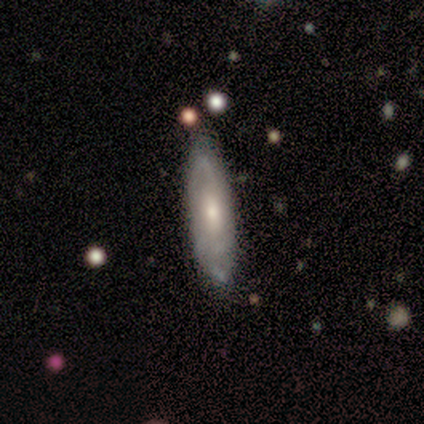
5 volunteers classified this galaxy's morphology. A featured or disk galaxy (60%) with a weak bar (50%, tied with no), 3 (100%) medium (100%) spiral arms (50%, tied with no) and a moderate central bulge (50%, tied with small).

Vote fractions:
- Smooth or featured? featured or disk: 60% / smooth: 40% / star or artifact: 0%
- Edge-on disk? no: 67% / yes: 33%
- Bar? weak: 50% (tied) / no: 50% (tied) / strong: 0%
- Spiral arms? yes: 50% (tied) / no: 50% (tied)
- Spiral winding? medium: 100% / tight: 0% / loose: 0%
- Spiral arm count? 3: 100% / 1: 0% / 2: 0% / 4: 0% / more than 4: 0% / can't tell: 0%
- Bulge size? moderate: 50% (tied) / small: 50% (tied) / dominant: 0% / large: 0% / none: 0%
- Merging? none: 80% / minor disturbance: 20% / major disturbance: 0% / merger: 0%